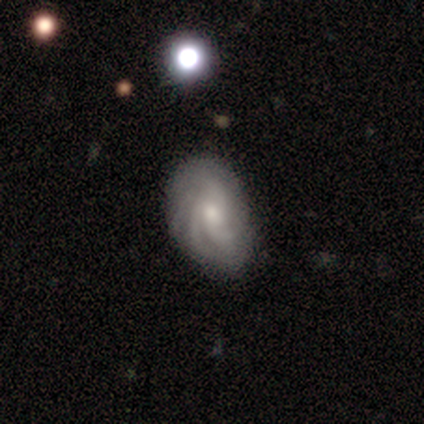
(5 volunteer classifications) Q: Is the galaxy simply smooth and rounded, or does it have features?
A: featured or disk — 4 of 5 (80%).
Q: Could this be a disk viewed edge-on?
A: no — 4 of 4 (100%).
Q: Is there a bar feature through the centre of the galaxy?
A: no — 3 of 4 (75%).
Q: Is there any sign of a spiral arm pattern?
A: yes — 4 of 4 (100%).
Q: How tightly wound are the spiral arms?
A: tight — 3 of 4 (75%).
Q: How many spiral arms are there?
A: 3 — 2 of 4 (50%).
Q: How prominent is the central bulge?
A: small — 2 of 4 (50%).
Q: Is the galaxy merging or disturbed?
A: none — 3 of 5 (60%).